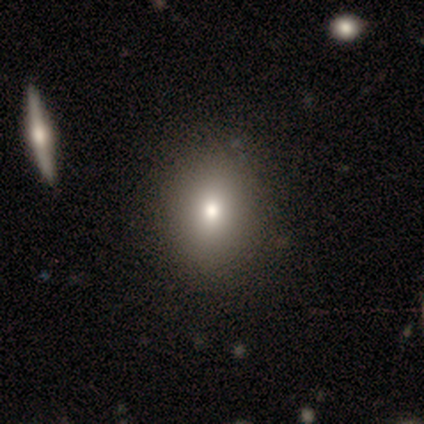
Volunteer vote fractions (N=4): Smooth or featured? 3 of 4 (75%) said smooth. How rounded? 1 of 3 (33%, tied with in between and cigar-shaped) said round. Merging? 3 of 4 (75%) said none.